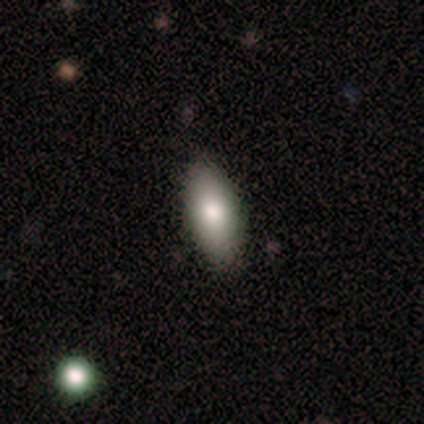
Smooth or featured? smooth (80%)
How rounded? in between (100%)
Merging? none (80%)